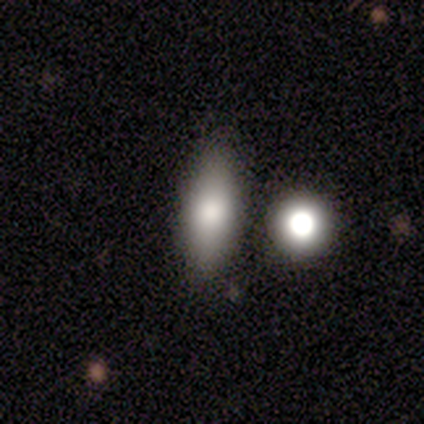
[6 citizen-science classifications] This is clearly a smooth galaxy (83%). How rounded: clearly in between (80%). Merging: clearly none (80%).